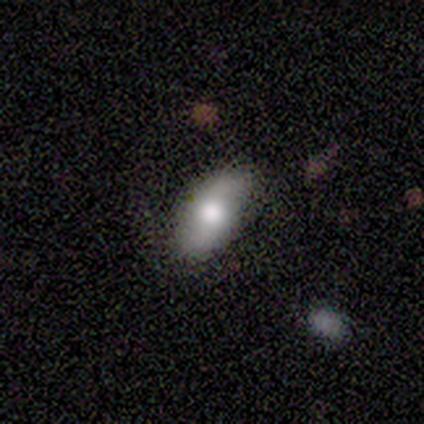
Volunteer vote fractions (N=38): This appears to be a smooth galaxy with no disk features (55%) that is in between round and cigar-shaped (86%). Merging: none (84%).